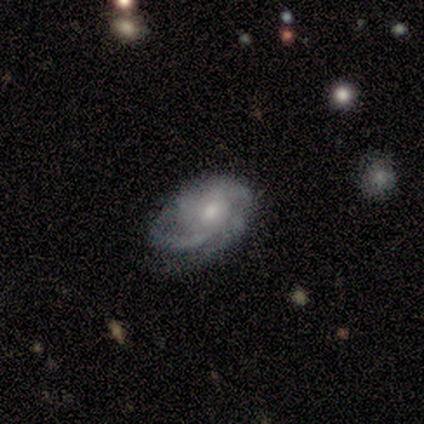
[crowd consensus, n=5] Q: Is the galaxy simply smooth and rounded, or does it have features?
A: featured or disk — 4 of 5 (80%).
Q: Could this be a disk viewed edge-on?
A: no — 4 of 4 (100%).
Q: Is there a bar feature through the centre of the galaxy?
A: no — 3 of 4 (75%).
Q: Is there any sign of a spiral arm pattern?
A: yes — 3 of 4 (75%).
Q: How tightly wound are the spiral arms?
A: medium — 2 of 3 (67%).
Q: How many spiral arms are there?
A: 1 — 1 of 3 (33%, tied with 4 and can't tell).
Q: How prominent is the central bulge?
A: moderate — 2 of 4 (50%, tied with small).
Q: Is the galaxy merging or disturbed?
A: none — 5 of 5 (100%).